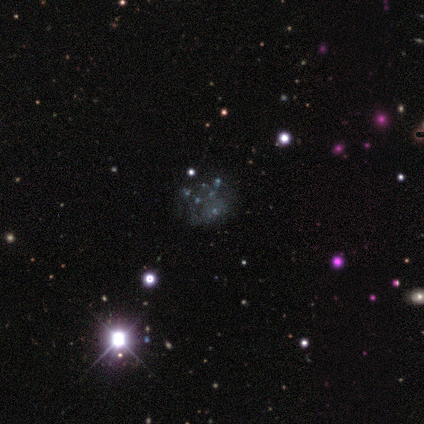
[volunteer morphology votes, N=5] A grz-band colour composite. It shows a star or artifact, not a galaxy (80%).